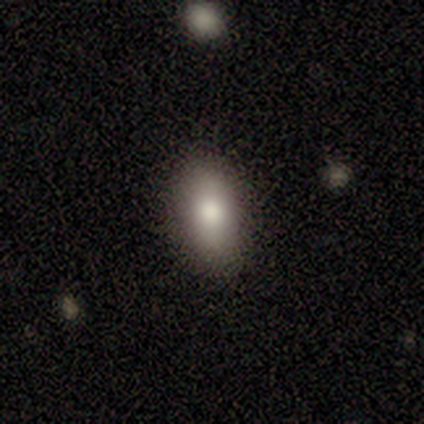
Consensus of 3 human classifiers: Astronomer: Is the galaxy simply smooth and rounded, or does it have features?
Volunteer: smooth — 67%.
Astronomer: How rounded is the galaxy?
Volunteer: in between — 100%.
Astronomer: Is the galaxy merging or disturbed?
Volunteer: none — 100%.